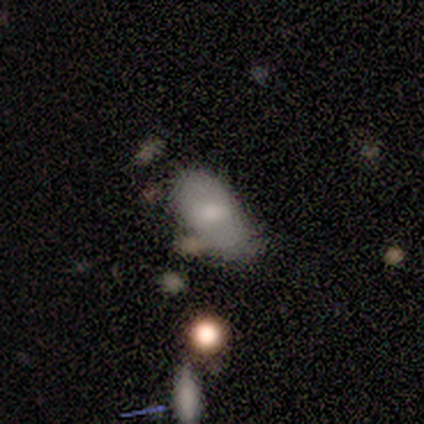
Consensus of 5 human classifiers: Smooth or featured? 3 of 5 (60%) said smooth. How rounded? 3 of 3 (100%) said in between. Merging? 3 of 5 (60%) said minor disturbance.